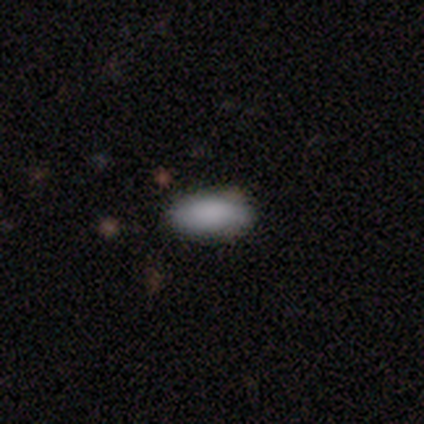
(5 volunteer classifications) Overall: smooth (80%). How rounded: in between (75%). Merging: none (100%).